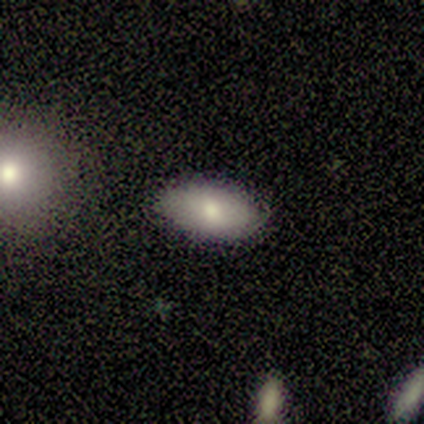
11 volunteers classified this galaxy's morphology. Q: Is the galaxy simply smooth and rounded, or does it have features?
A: smooth — 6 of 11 (55%).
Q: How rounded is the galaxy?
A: in between — 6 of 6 (100%).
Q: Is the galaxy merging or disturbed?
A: none — 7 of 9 (78%).